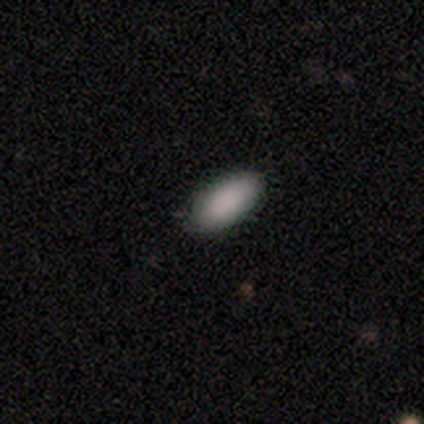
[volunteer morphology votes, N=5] This is clearly a smooth galaxy (80%). How rounded: likely in between (75%). Merging: clearly none (100%).